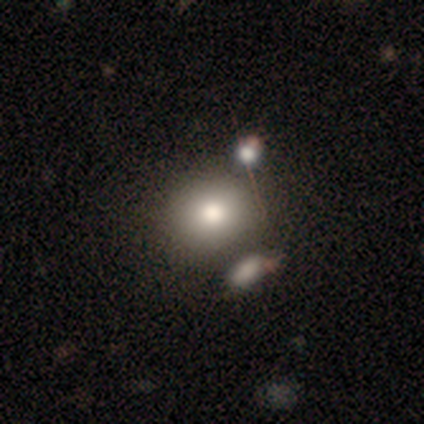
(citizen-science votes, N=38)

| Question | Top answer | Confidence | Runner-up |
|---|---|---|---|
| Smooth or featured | smooth | 71% | star or artifact (18%) |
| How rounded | round | 81% | in between (15%) |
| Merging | none | 65% | merger (16%) |